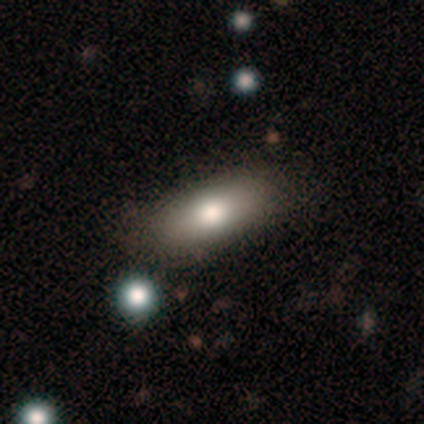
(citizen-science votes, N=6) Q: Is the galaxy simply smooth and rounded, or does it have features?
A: smooth — 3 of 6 (50%, tied with featured or disk).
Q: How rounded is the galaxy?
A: in between — 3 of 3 (100%).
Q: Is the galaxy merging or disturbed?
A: none — 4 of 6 (67%).